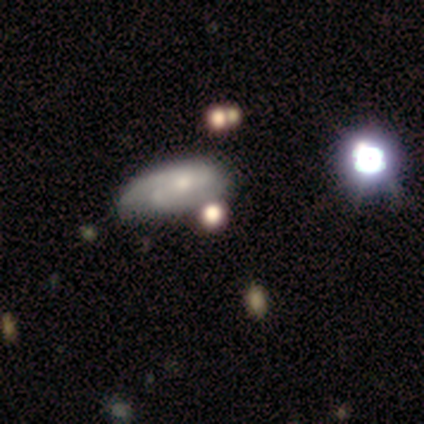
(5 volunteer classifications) smooth-or-featured: featured or disk: 60% | smooth: 20% | star or artifact: 20%
  disk-edge-on: no: 100% | yes: 0%
    bar: weak: 67% | no: 33% | strong: 0%
    has-spiral-arms: yes: 67% | no: 33%
      spiral-winding: loose: 100% | tight: 0% | medium: 0%
      spiral-arm-count: 2: 50% (tied) | can't tell: 50% (tied) | 1: 0% | 3: 0% | 4: 0% | more than 4: 0%
    bulge-size: small: 100% | dominant: 0% | large: 0% | moderate: 0% | none: 0%
  merging: none: 75% | major disturbance: 25% | minor disturbance: 0% | merger: 0%